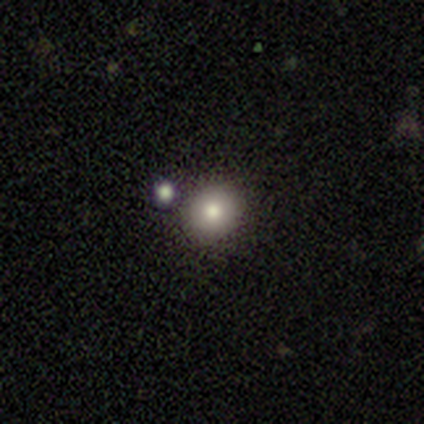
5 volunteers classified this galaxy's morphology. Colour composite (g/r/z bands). It shows a smooth galaxy with no disk features (100%) that is round (100%). Merging: none (60%).